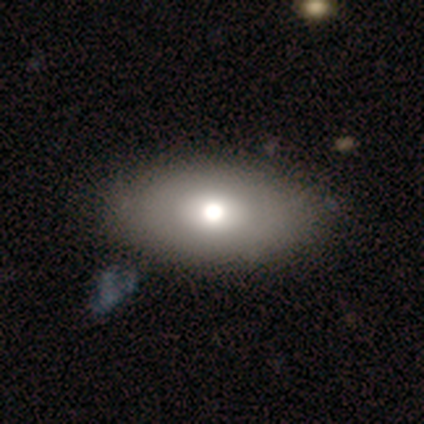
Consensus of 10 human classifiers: Q: Smooth or featured?
A: smooth (70%); runner-up: featured or disk (30%)
Q: How rounded?
A: in between (100%)
Q: Merging?
A: none (90%); runner-up: major disturbance (10%)